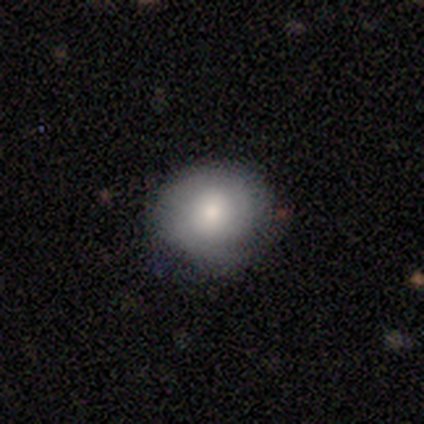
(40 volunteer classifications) Volunteers were most divided on "smooth or featured": smooth: 52%, featured or disk: 40%, star or artifact: 8%. More confident: how rounded — round (81%); merging — none (73%).